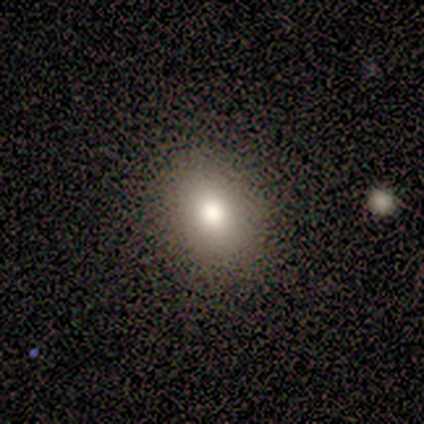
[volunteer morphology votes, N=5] A star or artifact, not a galaxy (60%).